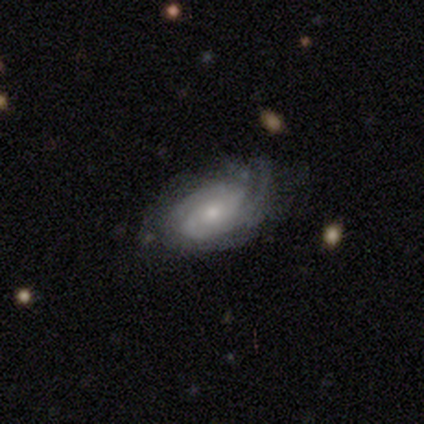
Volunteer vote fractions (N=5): Morphology: type=featured or disk (60%); edge-on=no (100%); bar=no (100%); spiral arms=yes (100%); winding=tight (33%, tied with medium and loose); arm count=1 (33%, tied with 3 and can't tell); bulge=moderate (67%); merging=none (60%).